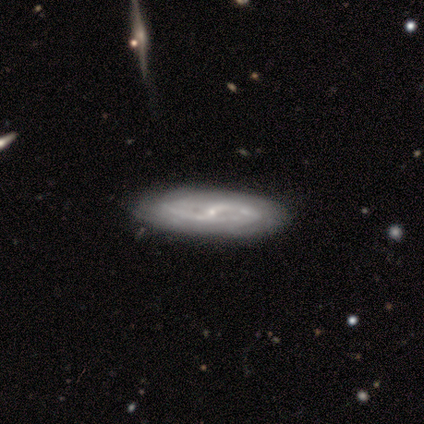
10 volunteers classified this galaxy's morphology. smooth-or-featured: featured or disk: 60% | smooth: 30% | star or artifact: 10%
  disk-edge-on: no: 100% | yes: 0%
    bar: no: 50% | weak: 33% | strong: 17%
    has-spiral-arms: yes: 100% | no: 0%
      spiral-winding: medium: 50% | tight: 33% | loose: 17%
      spiral-arm-count: can't tell: 83% | 2: 17% | 1: 0% | 3: 0% | 4: 0% | more than 4: 0%
    bulge-size: small: 67% | moderate: 33% | dominant: 0% | large: 0% | none: 0%
  merging: none: 89% | minor disturbance: 11% | major disturbance: 0% | merger: 0%